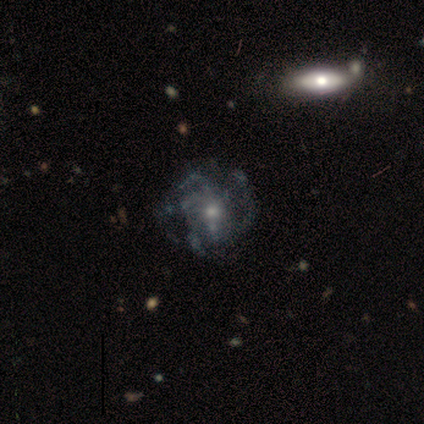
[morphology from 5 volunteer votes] This appears to be a featured or disk galaxy (60%) with no bar (100%), no spiral arms (67%) and a small central bulge (100%). Merging: none (60%).